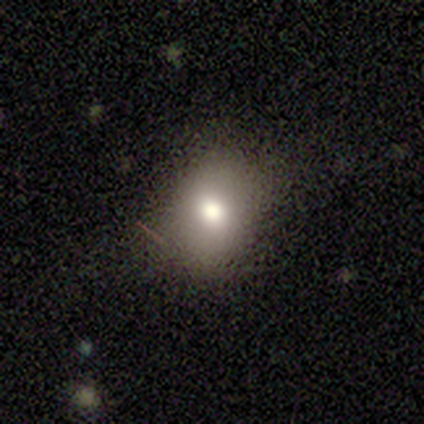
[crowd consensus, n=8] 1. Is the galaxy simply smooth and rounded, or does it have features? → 75% smooth, 25% featured or disk, 0% star or artifact.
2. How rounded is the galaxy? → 83% in between, 17% round, 0% cigar-shaped.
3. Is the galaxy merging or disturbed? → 62% none, 25% minor disturbance, 12% major disturbance, 0% merger.